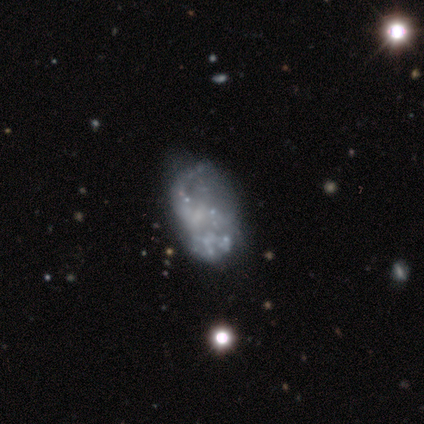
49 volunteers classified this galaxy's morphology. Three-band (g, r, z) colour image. It shows a featured or disk galaxy (71%) with no bar (83%), no spiral arms (77%) and no central bulge (83%). Merging: none (44%).